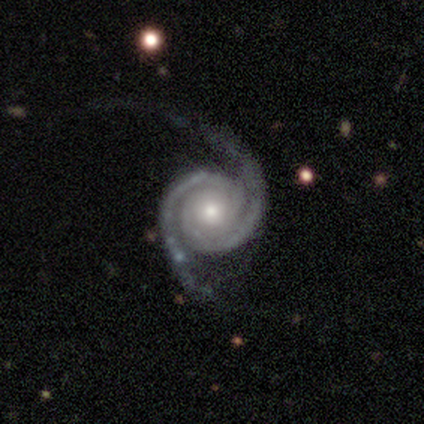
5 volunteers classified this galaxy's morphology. Smooth or featured? 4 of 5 (80%) said featured or disk. Edge-on disk? 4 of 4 (100%) said no. Bar? 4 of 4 (100%) said no. Spiral arms? 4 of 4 (100%) said yes. Spiral winding? 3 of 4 (75%) said tight. Spiral arm count? 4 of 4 (100%) said 2. Bulge size? 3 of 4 (75%) said moderate. Merging? 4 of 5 (80%) said none.